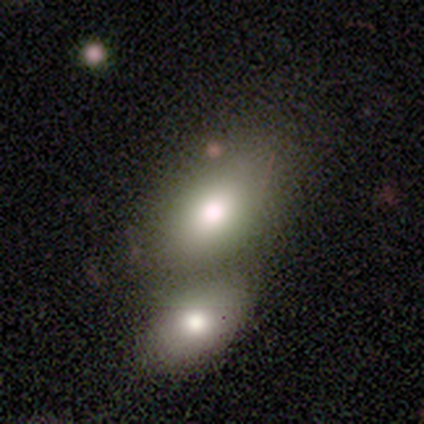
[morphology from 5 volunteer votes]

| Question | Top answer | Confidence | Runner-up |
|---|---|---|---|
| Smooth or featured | smooth | 60% | featured or disk (20%) |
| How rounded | in between | 100% | — |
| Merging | none | 50% | tied: merger (50%) |